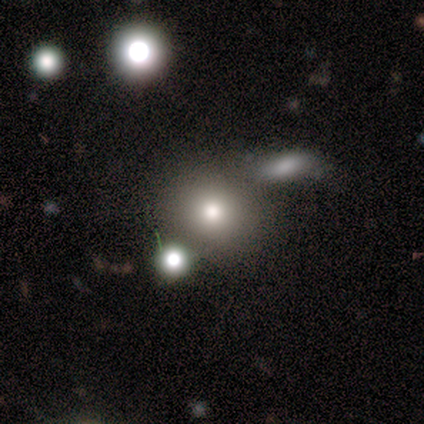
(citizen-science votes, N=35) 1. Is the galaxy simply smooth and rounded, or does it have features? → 63% smooth, 20% star or artifact, 17% featured or disk.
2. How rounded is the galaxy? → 82% round, 18% in between, 0% cigar-shaped.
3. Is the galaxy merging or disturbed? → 54% none, 25% merger, 14% minor disturbance, 7% major disturbance.